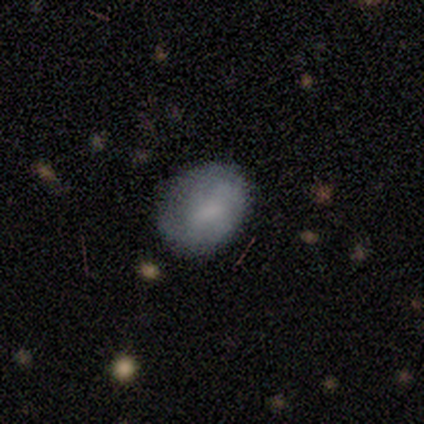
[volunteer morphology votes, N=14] Smooth or featured? 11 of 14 (79%) said smooth. How rounded? 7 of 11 (64%) said in between. Merging? 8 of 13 (62%) said none.